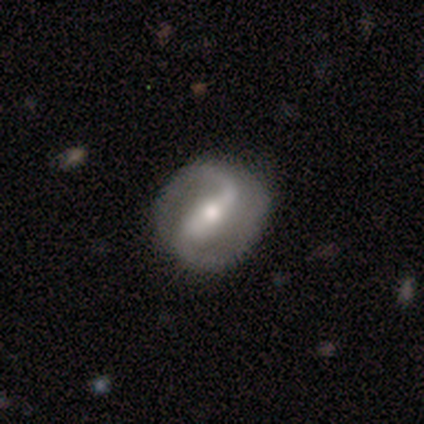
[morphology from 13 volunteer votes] smooth_or_featured: featured or disk (p=1.00)
disk_edge_on: no (p=0.85) [alt: yes p=0.15]
bar: weak (p=0.64) [alt: no p=0.27]
has_spiral_arms: yes (p=0.91) [alt: no p=0.09]
spiral_winding: medium (p=0.50) [alt: loose p=0.40]
spiral_arm_count: 2 (p=0.90) [alt: 1 p=0.10]
bulge_size: moderate (p=0.73) [alt: small p=0.27]
merging: none (p=0.77) [alt: major disturbance p=0.15]